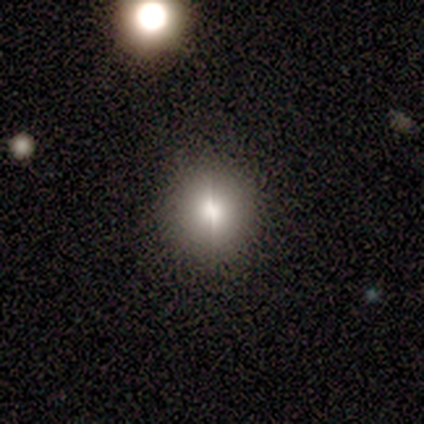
Overall: featured or disk (67%). Edge-on disk: no (75%). Bar: no (100%). Spiral arms: no (100%). Bulge size: moderate (67%; large 33%). Merging: none (80%).